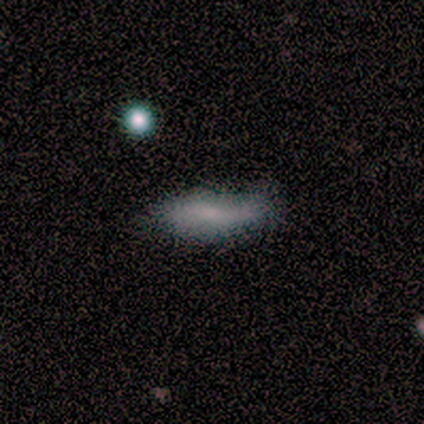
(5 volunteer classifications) Smooth or featured? 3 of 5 (60%) said featured or disk. Edge-on disk? 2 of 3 (67%) said no. Bar? 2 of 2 (100%) said no. Spiral arms? 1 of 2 (50%, tied with no) said yes. Spiral winding? 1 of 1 (100%) said loose. Spiral arm count? 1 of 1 (100%) said 2. Bulge size? 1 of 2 (50%, tied with none) said small. Merging? 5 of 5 (100%) said minor disturbance.